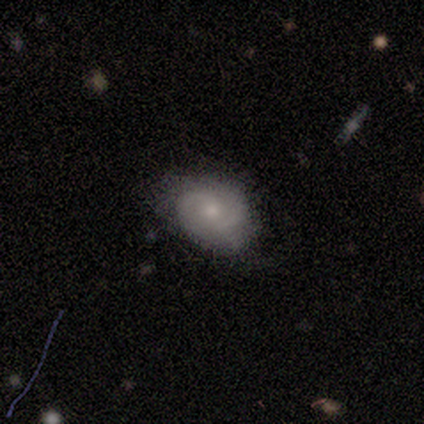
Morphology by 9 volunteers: Smooth or featured: smooth — 44% (featured or disk — 33%)
How rounded: in between — 75% (round — 25%)
Merging: none — 71% (minor disturbance — 14%)